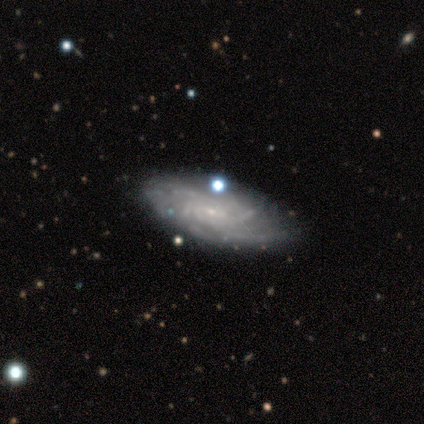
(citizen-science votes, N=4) Q: Smooth or featured?
A: featured or disk (100%)
Q: Edge-on disk?
A: no (100%)
Q: Bar?
A: no (100%)
Q: Spiral arms?
A: yes (75%); runner-up: no (25%)
Q: Spiral winding?
A: tight (67%); runner-up: medium (33%)
Q: Spiral arm count?
A: can't tell (67%); runner-up: more than 4 (33%)
Q: Bulge size?
A: small (75%); runner-up: moderate (25%)
Q: Merging?
A: none (75%); runner-up: minor disturbance (25%)